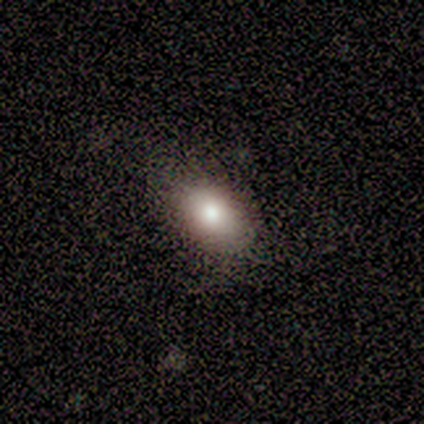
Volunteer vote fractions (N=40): Q: Smooth or featured?
A: smooth (88%); runner-up: featured or disk (8%)
Q: How rounded?
A: in between (86%); runner-up: round (11%)
Q: Merging?
A: none (53%); runner-up: minor disturbance (5%)